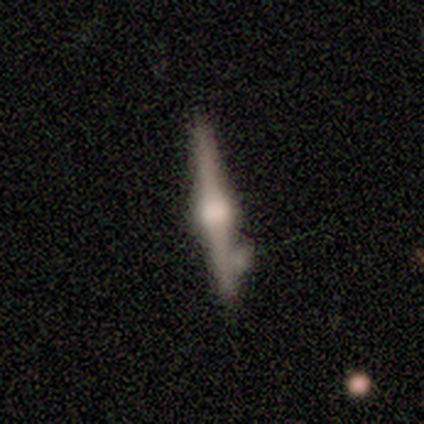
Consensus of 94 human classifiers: A featured or disk galaxy (89%) viewed edge-on (99%) with a rounded central bulge (94%).

Vote fractions:
- Smooth or featured? featured or disk: 89% / smooth: 10% / star or artifact: 1%
- Edge-on disk? yes: 99% / no: 1%
- Edge-on bulge? rounded: 94% / boxy: 6% / none: 0%
- Merging? none: 67% / minor disturbance: 23% / merger: 9% / major disturbance: 2%